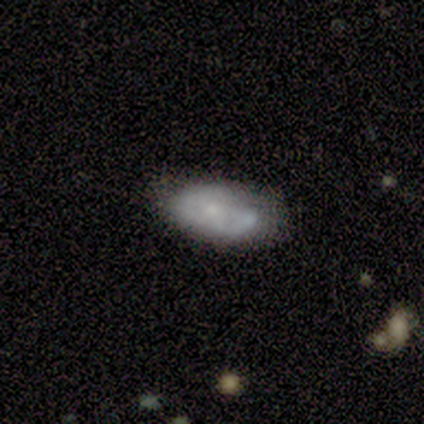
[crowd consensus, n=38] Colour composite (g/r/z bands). It shows a smooth galaxy with no disk features (63%) that is in between round and cigar-shaped (96%). Merging: none (41%).